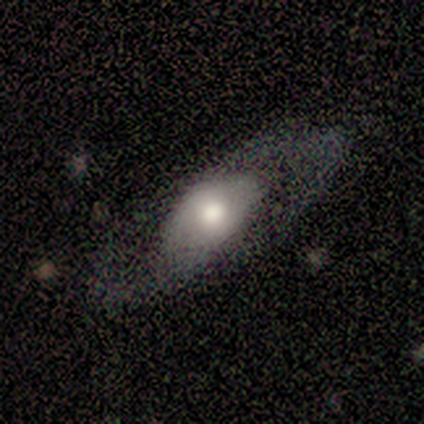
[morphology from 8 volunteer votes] smooth_or_featured: featured or disk (p=0.75) [alt: smooth p=0.12]
disk_edge_on: no (p=0.67) [alt: yes p=0.33]
bar: weak (p=0.50) [tied with: no p=0.50]
has_spiral_arms: yes (p=1.00)
spiral_winding: tight (p=0.50) [tied with: loose p=0.50]
spiral_arm_count: 2 (p=0.75) [alt: 1 p=0.25]
bulge_size: large (p=0.75) [alt: moderate p=0.25]
merging: none (p=0.43) [tied with: major disturbance p=0.43]